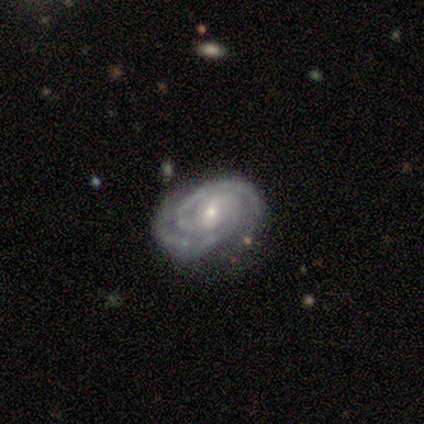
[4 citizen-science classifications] A featured or disk galaxy (100%) with a weak bar (75%), 2 (100%) tight (100%) spiral arms (100%) and a moderate central bulge (75%).

Vote fractions:
- Smooth or featured? featured or disk: 100% / smooth: 0% / star or artifact: 0%
- Edge-on disk? no: 100% / yes: 0%
- Bar? weak: 75% / no: 25% / strong: 0%
- Spiral arms? yes: 100% / no: 0%
- Spiral winding? tight: 100% / medium: 0% / loose: 0%
- Spiral arm count? 2: 100% / 1: 0% / 3: 0% / 4: 0% / more than 4: 0% / can't tell: 0%
- Bulge size? moderate: 75% / small: 25% / dominant: 0% / large: 0% / none: 0%
- Merging? none: 100% / minor disturbance: 0% / major disturbance: 0% / merger: 0%